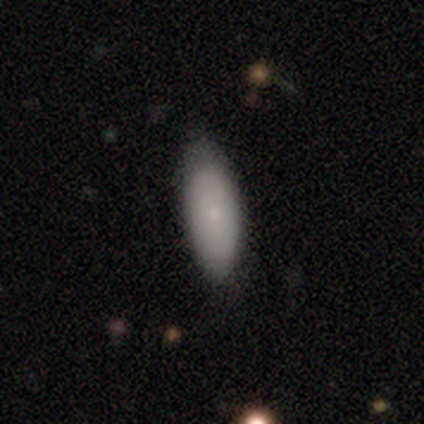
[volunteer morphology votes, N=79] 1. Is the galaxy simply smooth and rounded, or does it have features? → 80% smooth, 15% featured or disk, 5% star or artifact.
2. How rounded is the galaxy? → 86% in between, 11% cigar-shaped, 3% round.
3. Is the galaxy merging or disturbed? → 35% none, 15% minor disturbance, 1% major disturbance, 0% merger.